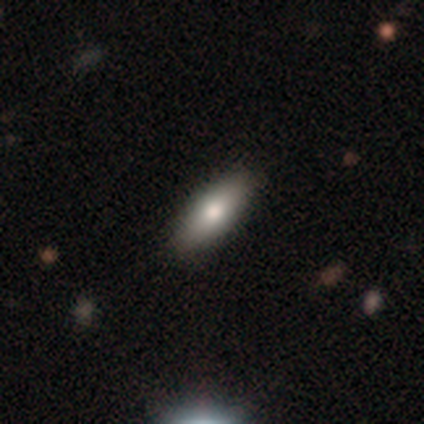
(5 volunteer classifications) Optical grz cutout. It shows a smooth galaxy with no disk features (80%) that is in between round and cigar-shaped (75%). Merging: none (60%).